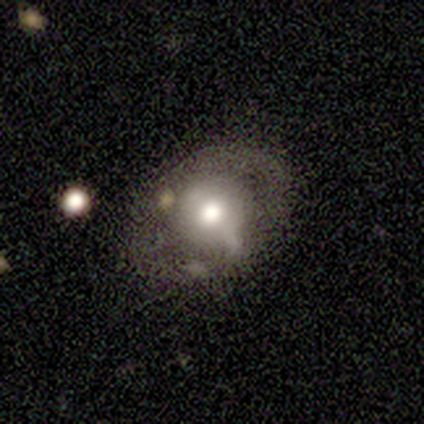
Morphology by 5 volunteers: Overall: featured or disk (60%; smooth 40%). Edge-on disk: no (100%). Bar: no (100%). Spiral arms: no (100%). Bulge size: moderate (100%). Merging: none (100%).